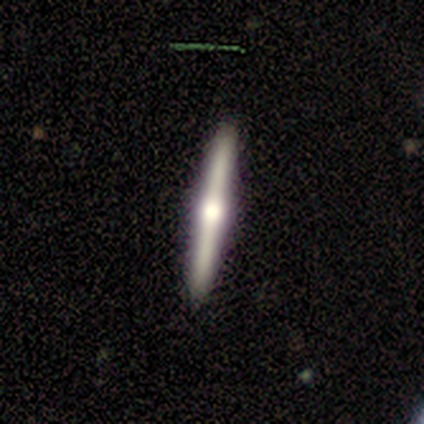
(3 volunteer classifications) featured or disk 100%, smooth 0%, star or artifact 0%. Down the decision tree: edge-on disk — yes (100%); edge-on bulge — rounded (100%); merging — none (100%).